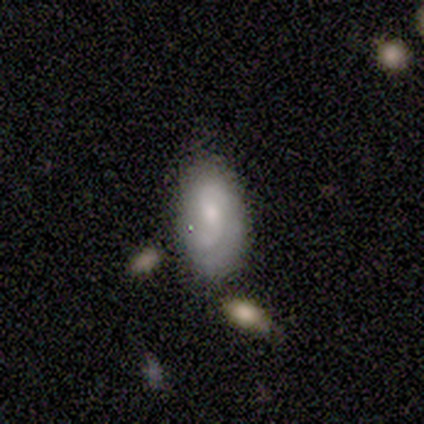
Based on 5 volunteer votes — This appears to be a featured or disk galaxy (60%) with no bar (67%), 2 (100%) tight (33%, tied with medium and loose) spiral arms (100%) and a small central bulge (67%). Merging: minor disturbance (60%).